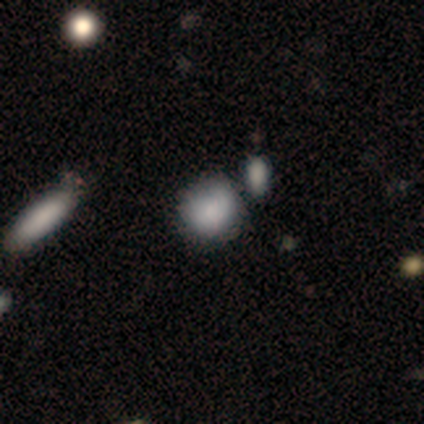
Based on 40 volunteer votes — A smooth galaxy with no disk features (72%) that is round (76%). Merging: none (43%).